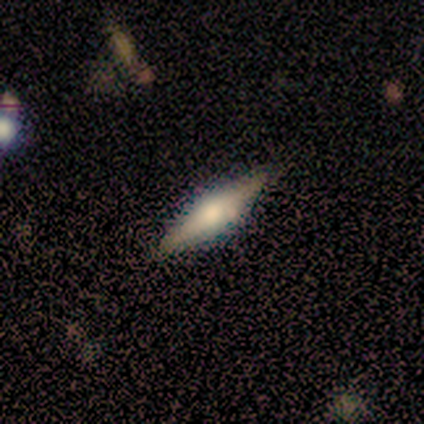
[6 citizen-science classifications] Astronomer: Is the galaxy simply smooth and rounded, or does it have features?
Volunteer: smooth — 33%, tied with featured or disk and star or artifact at 33%.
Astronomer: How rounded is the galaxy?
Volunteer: cigar-shaped — 100%.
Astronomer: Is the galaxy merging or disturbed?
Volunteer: none — 100%.